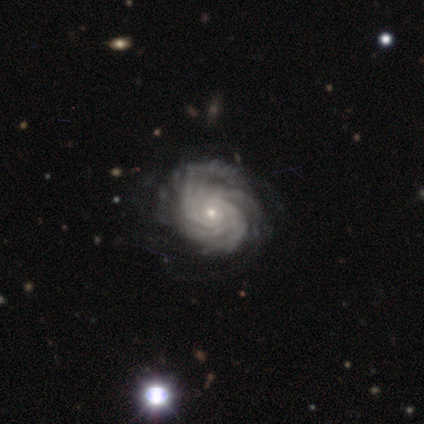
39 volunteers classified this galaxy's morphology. Overall: featured or disk (97%). Edge-on disk: no (100%). Bar: no (89%). Spiral arms: yes (100%). Spiral arm count: more than 4 (37%; can't tell 29%). Spiral winding: tight (84%). Bulge size: small (87%). Merging: none (50%; minor disturbance 21%).